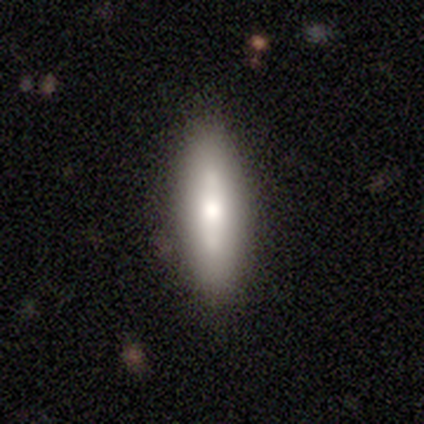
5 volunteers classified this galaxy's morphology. A smooth galaxy with no disk features (40%, tied with featured or disk) that is in between round and cigar-shaped (50%, tied with cigar-shaped). Merging: none (100%).